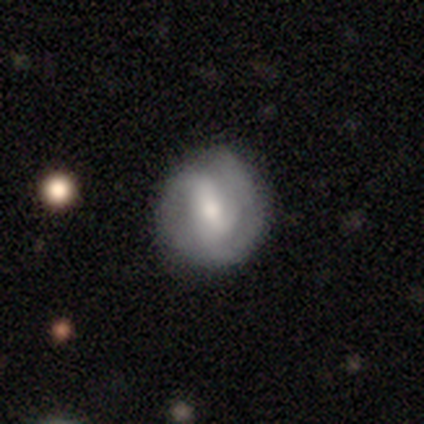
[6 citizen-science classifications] Overall: featured or disk (67%; smooth 33%). Edge-on disk: no (75%). Bar: weak (100%). Spiral arms: yes (100%). Spiral arm count: 2 (67%; can't tell 33%). Spiral winding: loose (67%; tight 33%). Bulge size: small (67%; moderate 33%). Merging: none (83%).